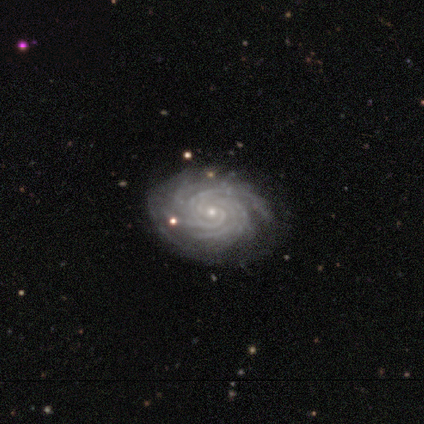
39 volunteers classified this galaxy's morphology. A featured or disk galaxy (95%) with no bar (86%), more than 4 (69%) tight (92%) spiral arms (100%) and a small central bulge (89%).

Vote fractions:
- Smooth or featured? featured or disk: 95% / smooth: 5% / star or artifact: 0%
- Edge-on disk? no: 97% / yes: 3%
- Bar? no: 86% / weak: 11% / strong: 3%
- Spiral arms? yes: 100% / no: 0%
- Spiral winding? tight: 92% / loose: 6% / medium: 3%
- Spiral arm count? more than 4: 69% / can't tell: 14% / 3: 8% / 4: 6% / 2: 3% / 1: 0%
- Bulge size? small: 89% / moderate: 6% / dominant: 3% / none: 3% / large: 0%
- Merging? none: 77% / minor disturbance: 21% / major disturbance: 3% / merger: 0%